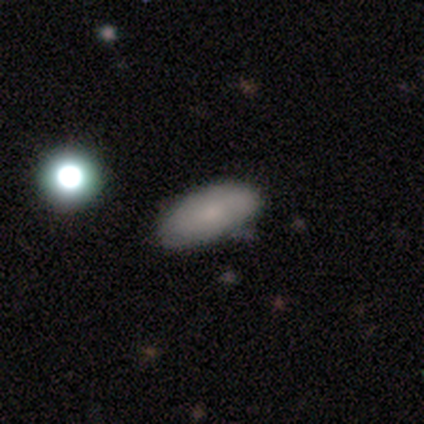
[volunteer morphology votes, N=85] Overall: smooth (72%). How rounded: in between (84%). Merging: none (80%).